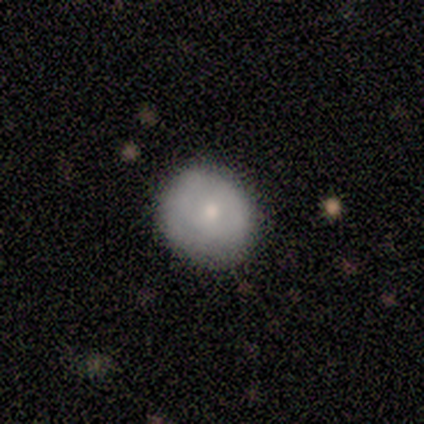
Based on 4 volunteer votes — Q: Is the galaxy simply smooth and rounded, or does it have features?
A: smooth — 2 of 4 (50%, tied with featured or disk).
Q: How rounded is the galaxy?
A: round — 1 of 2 (50%, tied with in between).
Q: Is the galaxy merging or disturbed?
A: none — 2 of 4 (50%, tied with minor disturbance).